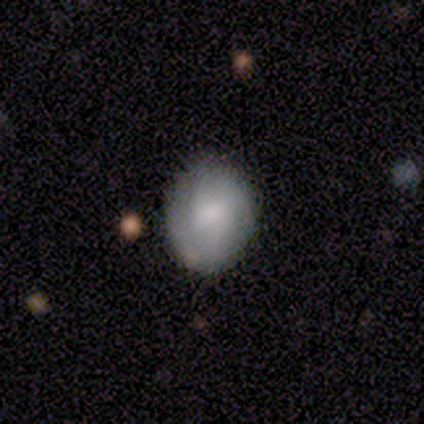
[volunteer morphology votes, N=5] Smooth or featured? featured or disk (60%)
Edge-on disk? no (100%)
Bar? weak (67%)
Spiral arms? no (67%)
Bulge size? small (67%)
Merging? none (100%)